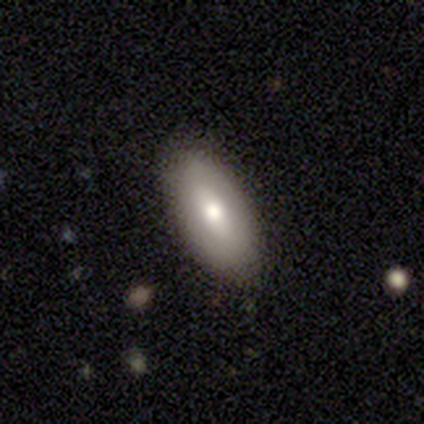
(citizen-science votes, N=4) Smooth or featured? smooth (50%, tied with featured or disk)
How rounded? in between (100%)
Merging? none (100%)